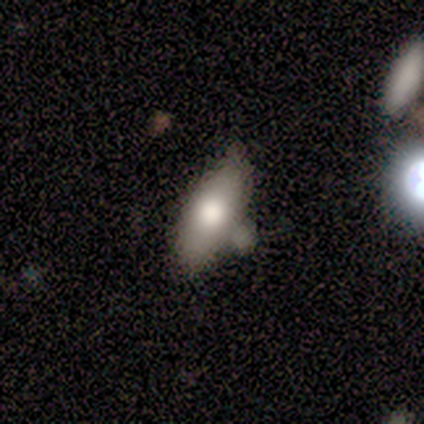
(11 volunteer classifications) Smooth or featured? 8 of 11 (73%) said smooth. How rounded? 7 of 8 (88%) said in between. Merging? 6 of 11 (55%) said none.